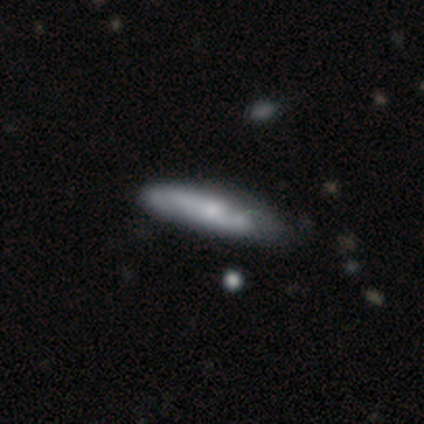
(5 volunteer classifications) Overall: smooth (80%). How rounded: cigar-shaped (75%). Merging: minor disturbance (80%).